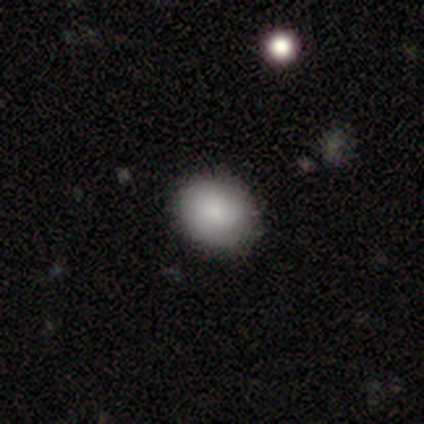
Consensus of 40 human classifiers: Smooth or featured: smooth — 88% (featured or disk — 10%)
How rounded: round — 60% (in between — 40%)
Merging: none — 92% (minor disturbance — 5%)